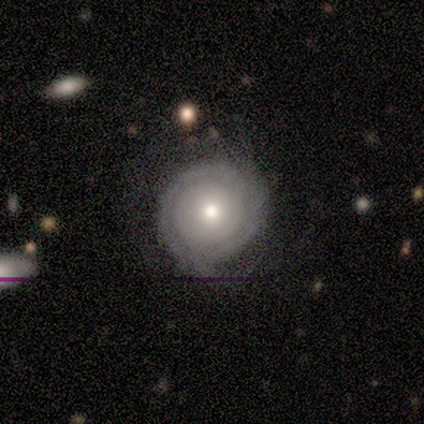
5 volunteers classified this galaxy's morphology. Smooth or featured? featured or disk (60%)
Edge-on disk? no (100%)
Bar? no (100%)
Spiral arms? yes (100%)
Spiral winding? tight (67%)
Spiral arm count? 2 (67%)
Bulge size? moderate (100%)
Merging? none (60%)